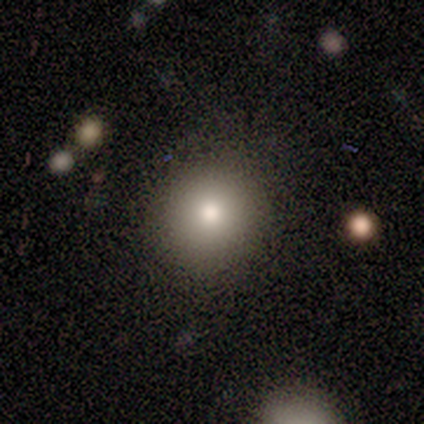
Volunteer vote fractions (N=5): Overall: smooth (100%). How rounded: round (100%). Merging: none (80%).